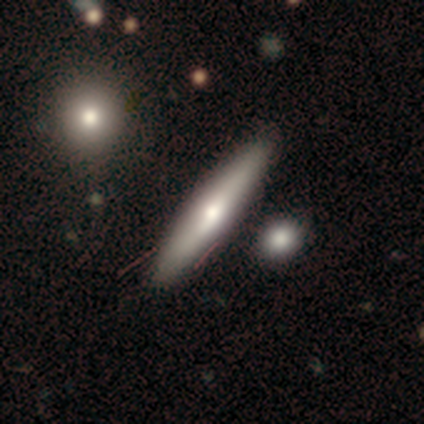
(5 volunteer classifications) Morphology: type=smooth (60%); roundness=cigar-shaped (100%); merging=none (60%).